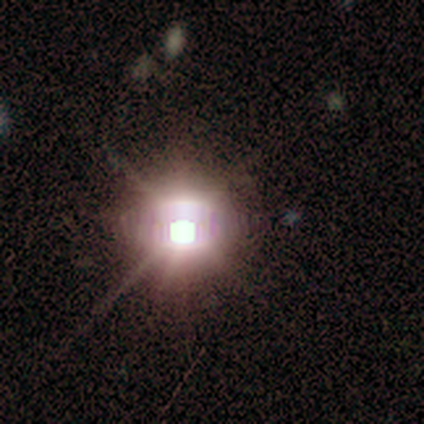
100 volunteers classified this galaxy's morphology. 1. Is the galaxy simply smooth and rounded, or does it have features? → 88% star or artifact, 7% featured or disk, 5% smooth.